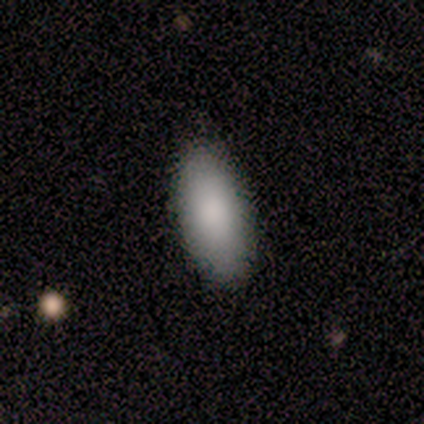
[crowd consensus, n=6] Morphology: type=smooth (100%); roundness=in between (67%); merging=none (100%).